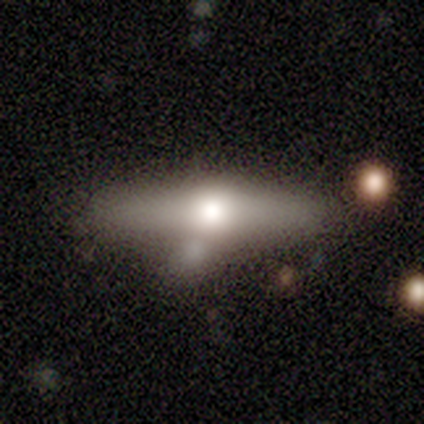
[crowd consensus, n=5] Q: Smooth or featured?
A: featured or disk (80%); runner-up: smooth (20%)
Q: Edge-on disk?
A: yes (100%)
Q: Edge-on bulge?
A: rounded (100%)
Q: Merging?
A: minor disturbance (60%); runner-up: none (20%)